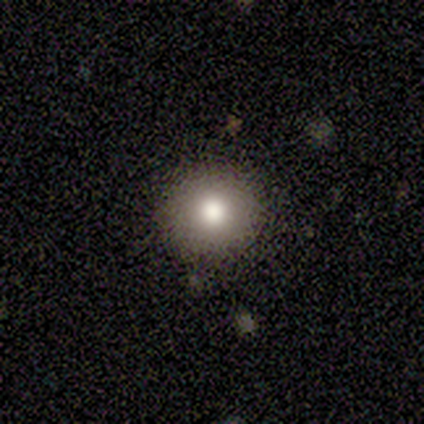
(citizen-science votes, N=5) This appears to be a smooth galaxy with no disk features (80%) that is round (100%). Merging: none (75%).